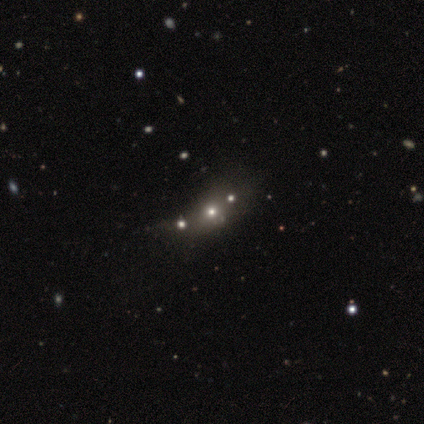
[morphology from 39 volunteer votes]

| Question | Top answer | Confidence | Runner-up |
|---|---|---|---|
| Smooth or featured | smooth | 62% | star or artifact (23%) |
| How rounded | round | 46% | in between (42%) |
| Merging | none | 43% | merger (27%) |